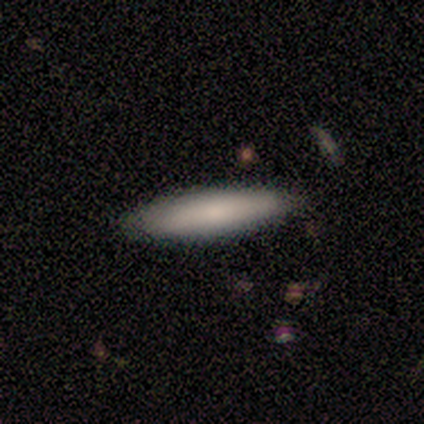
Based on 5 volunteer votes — Smooth or featured: smooth — 100%
How rounded: cigar-shaped — 100%
Merging: none — 80% (minor disturbance — 20%)